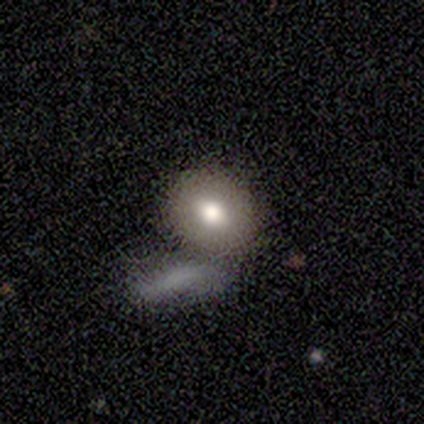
Morphology: type=smooth (60%); roundness=round (67%); merging=none (25%, tied with minor disturbance, major disturbance and merger).